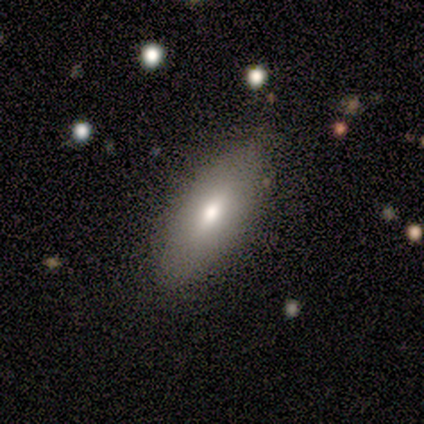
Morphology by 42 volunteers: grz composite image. It shows a smooth galaxy with no disk features (64%) that is in between round and cigar-shaped (78%). Merging: none (84%).